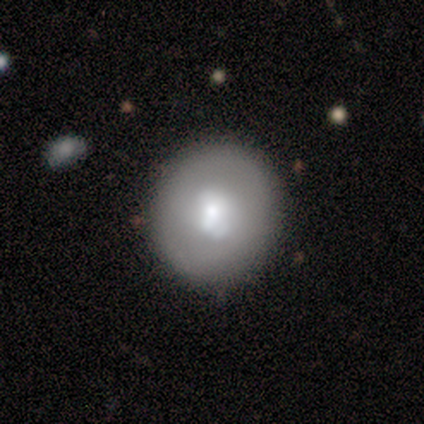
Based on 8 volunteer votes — This is clearly a smooth galaxy (88%). How rounded: clearly round (100%). Merging: likely none (75%).